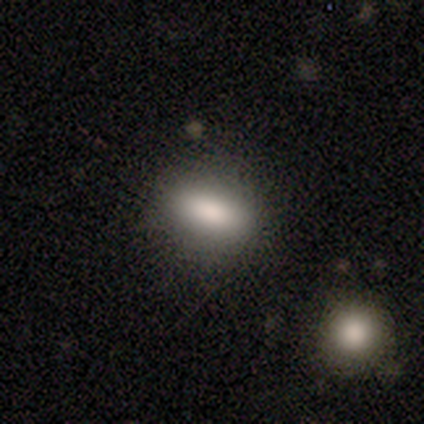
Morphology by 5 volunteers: smooth_or_featured: smooth (p=0.80) [alt: featured or disk p=0.20]
how_rounded: cigar-shaped (p=0.50) [alt: round p=0.25]
merging: none (p=0.60) [alt: minor disturbance p=0.20]